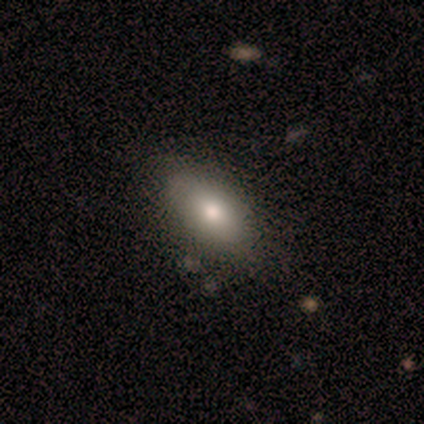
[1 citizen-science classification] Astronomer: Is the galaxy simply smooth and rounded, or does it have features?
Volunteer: smooth — 100%.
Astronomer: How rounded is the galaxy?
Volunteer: in between — 100%.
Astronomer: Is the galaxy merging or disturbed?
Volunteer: none — 100%.